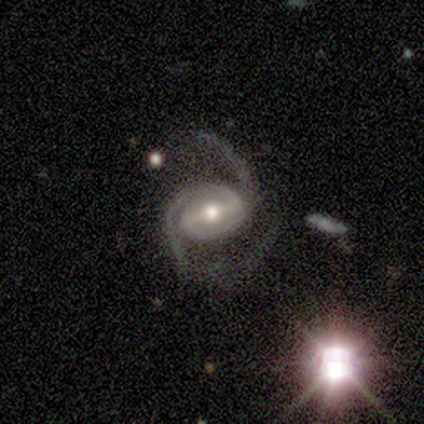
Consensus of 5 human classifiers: Smooth or featured?
  - featured or disk: 100% *
  - smooth: 0%
  - star or artifact: 0%
Edge-on disk?
  - no: 100% *
  - yes: 0%
Bar?
  - strong: 60% *
  - no: 40%
  - weak: 0%
Spiral arms?
  - yes: 80% *
  - no: 20%
Spiral winding?
  - medium: 50% * (tied)
  - loose: 50% * (tied)
  - tight: 0%
Spiral arm count?
  - 2: 100% *
  - 1: 0%
  - 3: 0%
  - 4: 0%
  - more than 4: 0%
  - can't tell: 0%
Bulge size?
  - small: 60% *
  - large: 20%
  - moderate: 20%
  - dominant: 0%
  - none: 0%
Merging?
  - none: 60% *
  - minor disturbance: 20%
  - major disturbance: 20%
  - merger: 0%